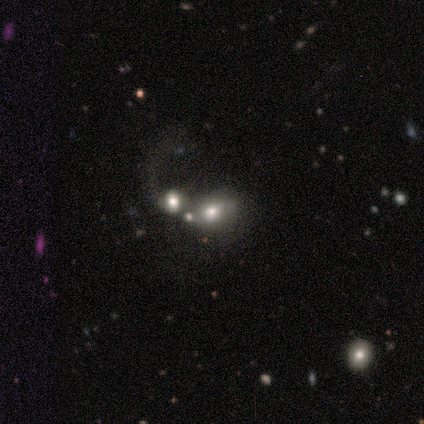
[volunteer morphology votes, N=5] Smooth or featured?
  - featured or disk: 40% * (tied)
  - star or artifact: 40% * (tied)
  - smooth: 20%
Edge-on disk?
  - no: 100% *
  - yes: 0%
Bar?
  - no: 100% *
  - strong: 0%
  - weak: 0%
Spiral arms?
  - no: 100% *
  - yes: 0%
Bulge size?
  - dominant: 50% * (tied)
  - large: 50% * (tied)
  - moderate: 0%
  - small: 0%
  - none: 0%
Merging?
  - merger: 67% *
  - none: 33%
  - minor disturbance: 0%
  - major disturbance: 0%